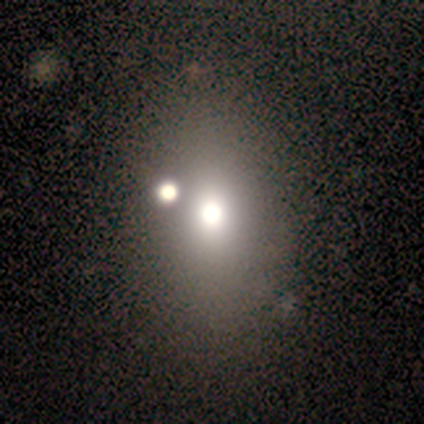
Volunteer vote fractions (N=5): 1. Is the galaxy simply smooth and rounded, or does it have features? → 80% star or artifact, 20% featured or disk, 0% smooth.